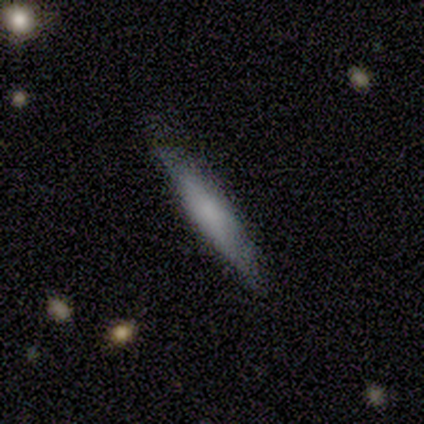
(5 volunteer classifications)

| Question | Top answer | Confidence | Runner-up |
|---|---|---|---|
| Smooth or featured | featured or disk | 60% | smooth (40%) |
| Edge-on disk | yes | 100% | — |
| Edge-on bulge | none | 67% | rounded (33%) |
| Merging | none | 80% | minor disturbance (20%) |